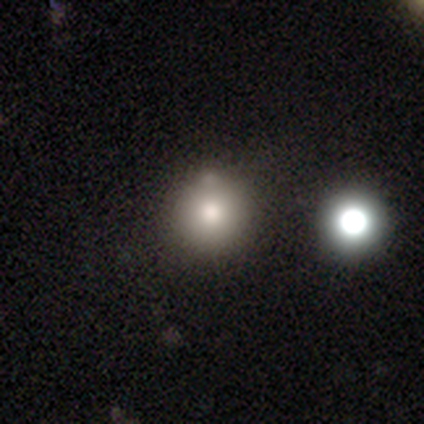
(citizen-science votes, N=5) This is marginally a smooth galaxy (40%, tied with featured or disk). How rounded: clearly round (100%). Merging: likely none (75%).